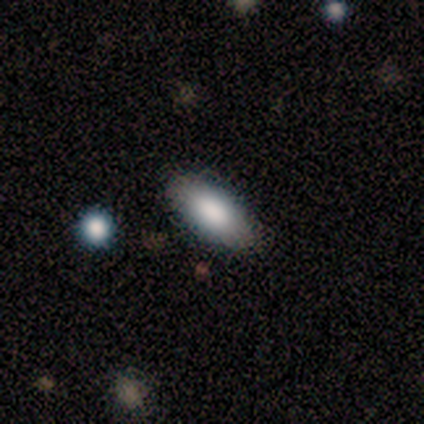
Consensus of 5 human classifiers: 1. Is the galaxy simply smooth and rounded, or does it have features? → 100% smooth, 0% featured or disk, 0% star or artifact.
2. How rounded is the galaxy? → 100% in between, 0% round, 0% cigar-shaped.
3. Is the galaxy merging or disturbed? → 80% none, 20% merger, 0% minor disturbance, 0% major disturbance.